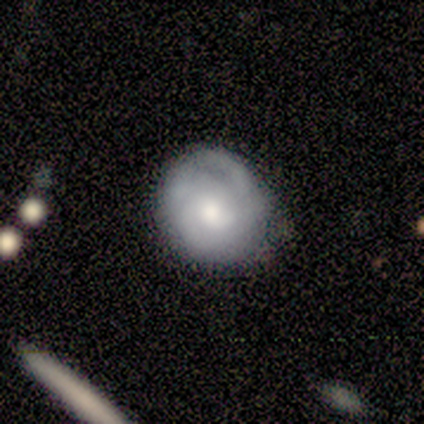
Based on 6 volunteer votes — This is possibly a featured or disk galaxy (50%). It is likely not viewed edge-on (67%). Bar: clearly no (100%). Spiral arm pattern: possibly yes (50%, tied with no). Spiral arm count: clearly can't tell (100%). Spiral winding: clearly medium (100%). Central bulge: clearly moderate (100%). Merging: clearly none (80%).